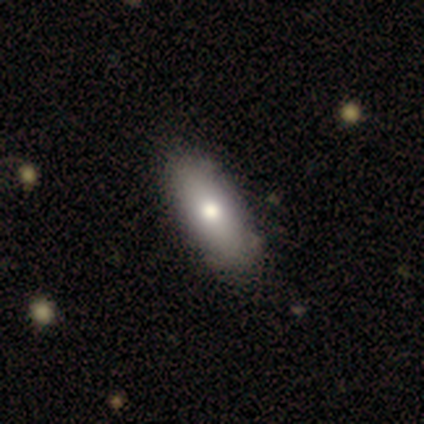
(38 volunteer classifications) smooth_or_featured: smooth (p=0.76) [alt: featured or disk p=0.18]
how_rounded: in between (p=0.86) [alt: cigar-shaped p=0.14]
merging: none (p=0.72) [alt: minor disturbance p=0.06]